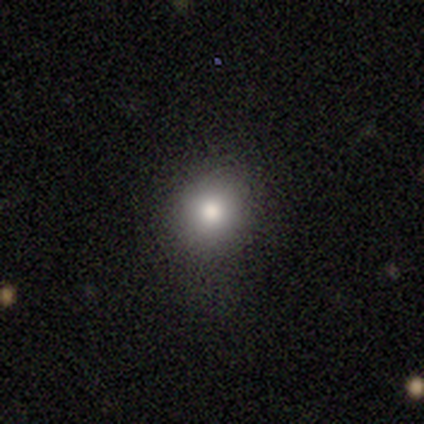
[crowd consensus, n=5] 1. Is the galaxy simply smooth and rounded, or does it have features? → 80% smooth, 20% star or artifact, 0% featured or disk.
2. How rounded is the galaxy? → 100% round, 0% in between, 0% cigar-shaped.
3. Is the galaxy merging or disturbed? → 75% none, 25% minor disturbance, 0% major disturbance, 0% merger.